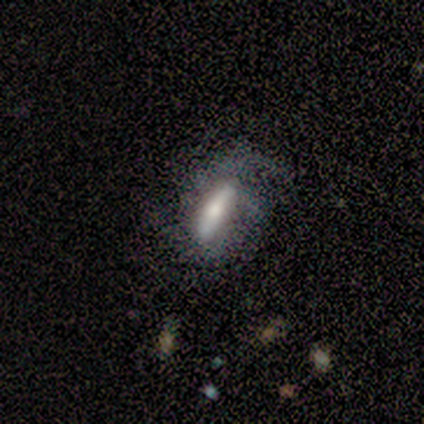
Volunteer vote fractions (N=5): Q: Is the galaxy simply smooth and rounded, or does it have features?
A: smooth — 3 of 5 (60%).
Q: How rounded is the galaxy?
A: cigar-shaped — 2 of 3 (67%).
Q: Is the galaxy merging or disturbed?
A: none — 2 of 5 (40%, tied with major disturbance).